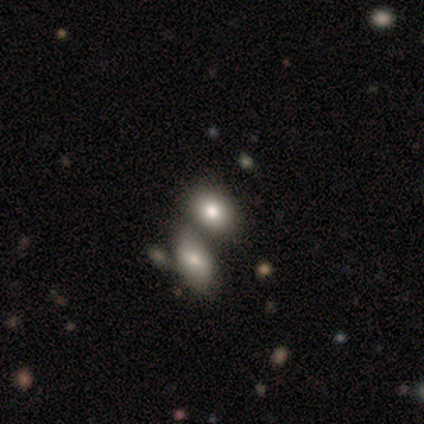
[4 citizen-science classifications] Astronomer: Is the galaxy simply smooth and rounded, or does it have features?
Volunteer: smooth — 100%.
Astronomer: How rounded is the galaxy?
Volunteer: in between — 100%.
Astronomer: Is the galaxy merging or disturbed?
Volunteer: merger — 75%.